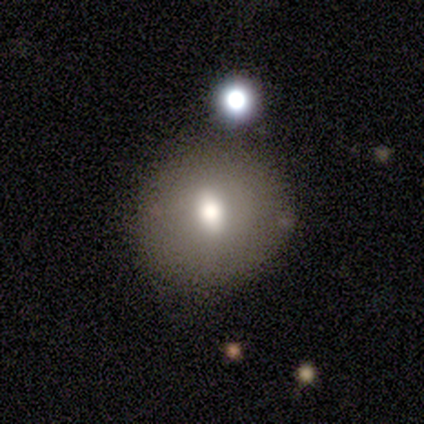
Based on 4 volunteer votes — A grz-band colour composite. It shows a smooth galaxy with no disk features (75%) that is round (67%). Merging: none (50%, tied with minor disturbance).